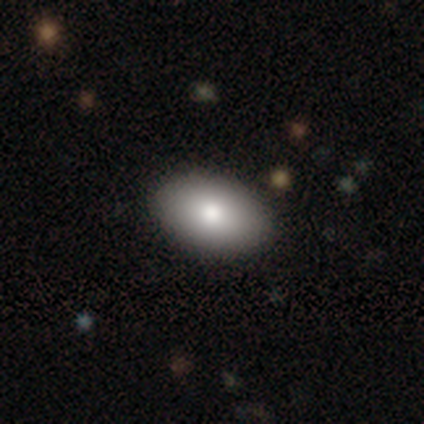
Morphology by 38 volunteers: Q: Smooth or featured?
A: smooth (95%); runner-up: featured or disk (5%)
Q: How rounded?
A: in between (97%); runner-up: round (3%)
Q: Merging?
A: none (55%); runner-up: minor disturbance (5%)